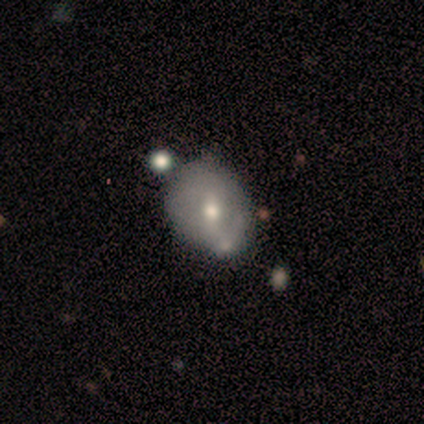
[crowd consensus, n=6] smooth-or-featured: smooth: 50% (tied) | featured or disk: 50% (tied) | star or artifact: 0%
  how-rounded: in between: 67% | round: 33% | cigar-shaped: 0%
  merging: none: 33% (tied) | minor disturbance: 33% (tied) | merger: 33% (tied) | major disturbance: 0%